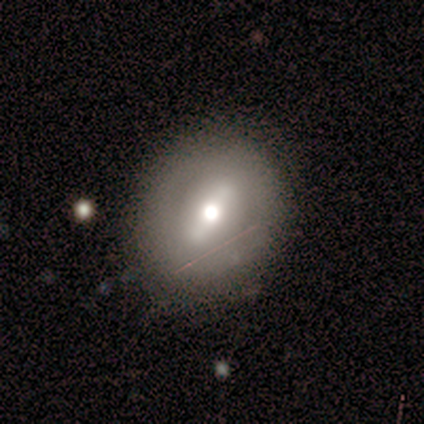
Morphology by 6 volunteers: Smooth or featured? 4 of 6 (67%) said featured or disk. Edge-on disk? 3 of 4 (75%) said no. Bar? 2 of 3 (67%) said strong. Spiral arms? 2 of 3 (67%) said no. Bulge size? 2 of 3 (67%) said moderate. Merging? 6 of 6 (100%) said none.